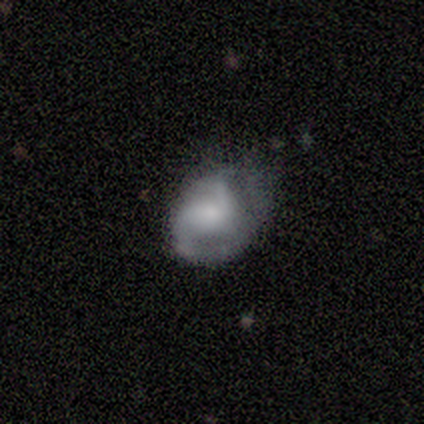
A smooth galaxy with no disk features (67%) that is round (50%, tied with in between).

Vote fractions:
- Smooth or featured? smooth: 67% / featured or disk: 33% / star or artifact: 0%
- How rounded? round: 50% (tied) / in between: 50% (tied) / cigar-shaped: 0%
- Merging? minor disturbance: 67% / major disturbance: 33% / none: 0% / merger: 0%